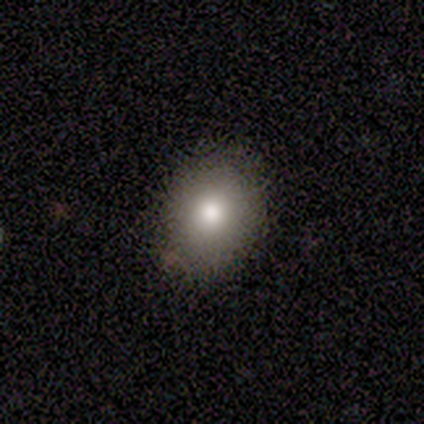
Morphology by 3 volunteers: smooth-or-featured: smooth: 100% | featured or disk: 0% | star or artifact: 0%
  how-rounded: in between: 67% | round: 33% | cigar-shaped: 0%
  merging: none: 100% | minor disturbance: 0% | major disturbance: 0% | merger: 0%